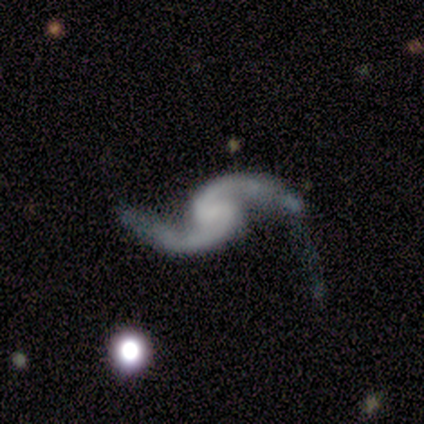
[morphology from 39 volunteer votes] smooth-or-featured: featured or disk: 95% | star or artifact: 5% | smooth: 0%
  disk-edge-on: no: 97% | yes: 3%
    bar: no: 47% | weak: 42% | strong: 11%
    has-spiral-arms: yes: 97% | no: 3%
      spiral-winding: loose: 89% | tight: 6% | medium: 6%
      spiral-arm-count: 2: 100% | 1: 0% | 3: 0% | 4: 0% | more than 4: 0% | can't tell: 0%
    bulge-size: none: 67% | small: 22% | moderate: 11% | dominant: 0% | large: 0%
  merging: none: 38% | major disturbance: 35% | minor disturbance: 22% | merger: 5%